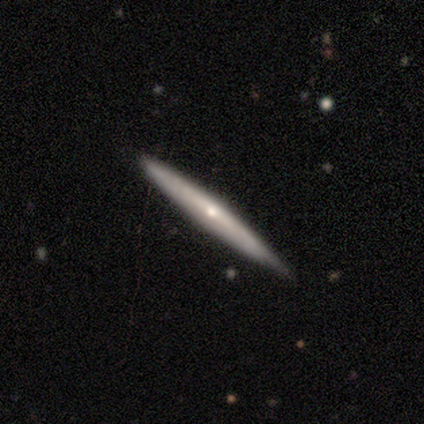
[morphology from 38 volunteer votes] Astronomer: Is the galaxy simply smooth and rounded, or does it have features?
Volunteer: featured or disk — 66%.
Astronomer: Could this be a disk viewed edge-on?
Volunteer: yes — 84%.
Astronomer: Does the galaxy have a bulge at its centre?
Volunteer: rounded — 81%.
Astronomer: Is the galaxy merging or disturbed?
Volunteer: none — 86%.